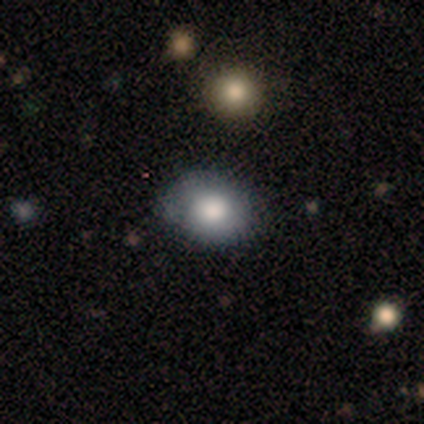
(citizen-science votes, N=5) Overall: smooth (100%). How rounded: in between (80%). Merging: none (100%).